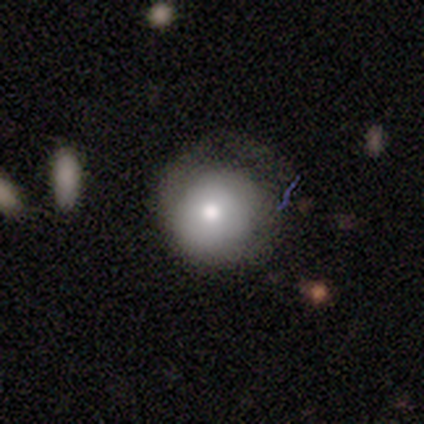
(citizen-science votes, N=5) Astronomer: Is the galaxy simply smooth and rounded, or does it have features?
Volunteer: featured or disk — 40%, tied with star or artifact at 40%.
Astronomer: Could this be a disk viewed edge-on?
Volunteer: no — 100%.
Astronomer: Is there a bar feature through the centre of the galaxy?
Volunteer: no — 100%.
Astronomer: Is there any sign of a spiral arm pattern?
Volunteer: yes — 50%, tied with no at 50%.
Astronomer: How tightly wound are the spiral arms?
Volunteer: medium — 100%.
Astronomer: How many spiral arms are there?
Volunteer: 1 — 100%.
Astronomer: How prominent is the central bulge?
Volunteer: moderate — 100%.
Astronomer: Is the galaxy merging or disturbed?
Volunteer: none — 33%, tied with minor disturbance and major disturbance at 33%.